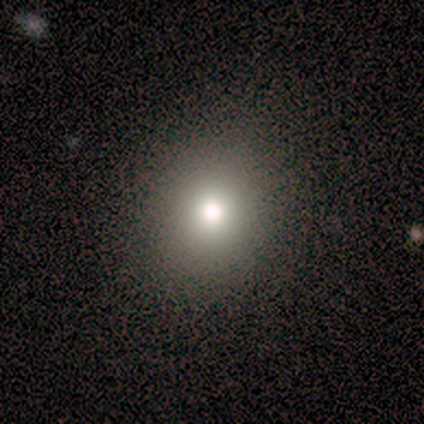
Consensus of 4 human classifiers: Smooth or featured: star or artifact — 50% (smooth — 25%)